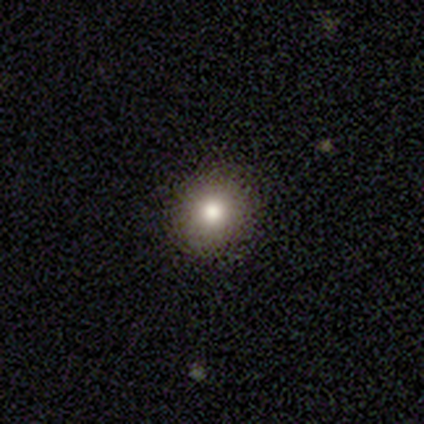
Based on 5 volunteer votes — Q: Smooth or featured?
A: smooth (100%)
Q: How rounded?
A: round (100%)
Q: Merging?
A: none (100%)